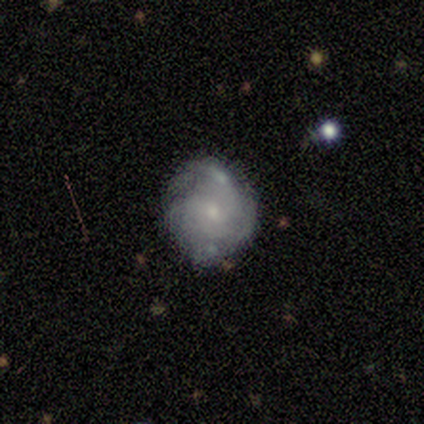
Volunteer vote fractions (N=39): A featured or disk galaxy (82%) with no bar (75%), medium (60%) spiral arms (94%) and a small central bulge (62%). Merging: none (58%).